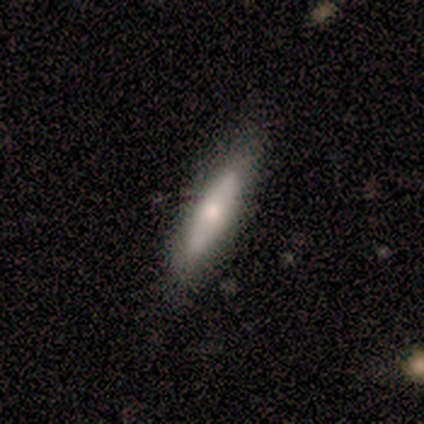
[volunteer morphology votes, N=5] A smooth galaxy with no disk features (100%) that is cigar-shaped (100%). Merging: none (100%).